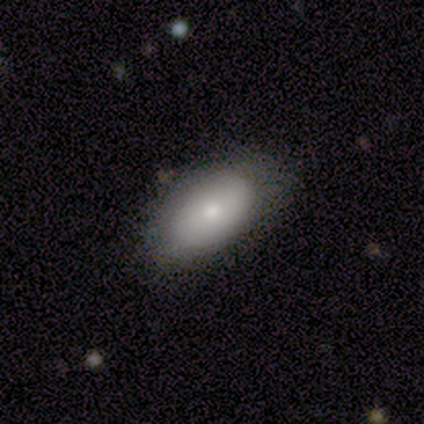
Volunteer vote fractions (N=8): Q: Smooth or featured?
A: smooth (62%); runner-up: featured or disk (38%)
Q: How rounded?
A: in between (100%)
Q: Merging?
A: none (75%); runner-up: minor disturbance (12%)